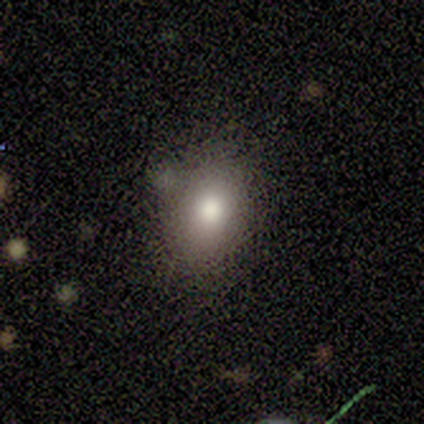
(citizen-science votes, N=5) Smooth or featured? 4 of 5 (80%) said smooth. How rounded? 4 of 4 (100%) said in between. Merging? 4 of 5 (80%) said none.